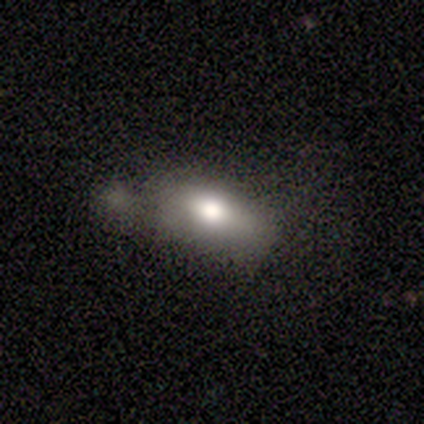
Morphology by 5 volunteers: smooth_or_featured: featured or disk (p=0.40) [tied with: star or artifact p=0.40]
disk_edge_on: yes (p=0.50) [tied with: no p=0.50]
edge_on_bulge: rounded (p=1.00)
merging: merger (p=1.00)